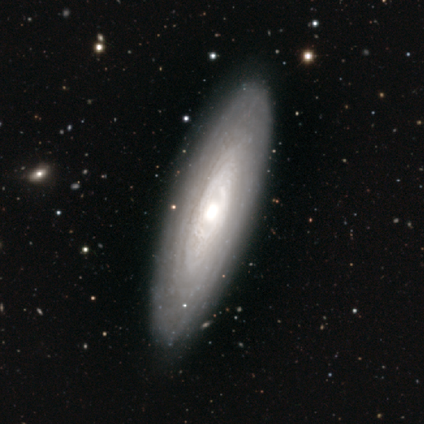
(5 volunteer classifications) Volunteers were most divided on "spiral arm count": more than 4: 67%, can't tell: 33%, 1: 0%, 2: 0%, 3: 0%, 4: 0%. More confident: edge-on disk — no (100%); spiral winding — tight (100%); bulge size — moderate (100%); merging — none (100%); smooth or featured — featured or disk (80%); bar — no (75%); spiral arms — yes (75%).